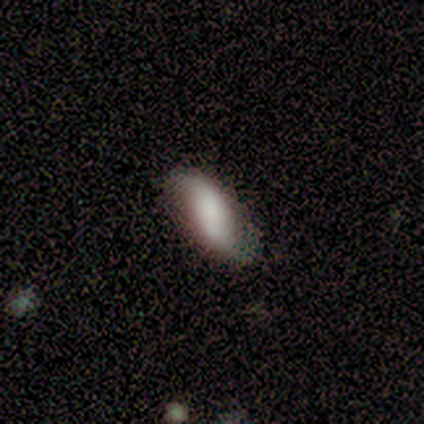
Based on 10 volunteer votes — smooth-or-featured: smooth: 90% | featured or disk: 10% | star or artifact: 0%
  how-rounded: in between: 56% | cigar-shaped: 44% | round: 0%
  merging: none: 60% | minor disturbance: 40% | major disturbance: 0% | merger: 0%